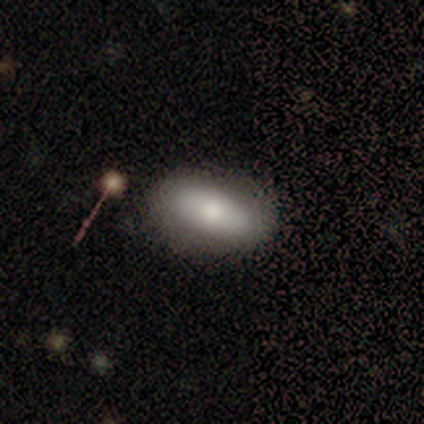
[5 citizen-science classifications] smooth_or_featured: smooth (p=1.00)
how_rounded: in between (p=1.00)
merging: none (p=0.80) [alt: major disturbance p=0.20]